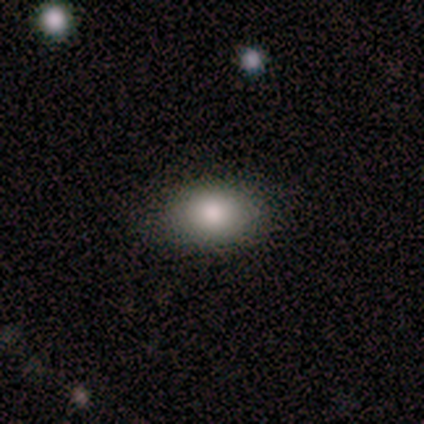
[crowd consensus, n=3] This is clearly a smooth galaxy (100%). How rounded: likely in between (67%). Merging: likely none (67%).